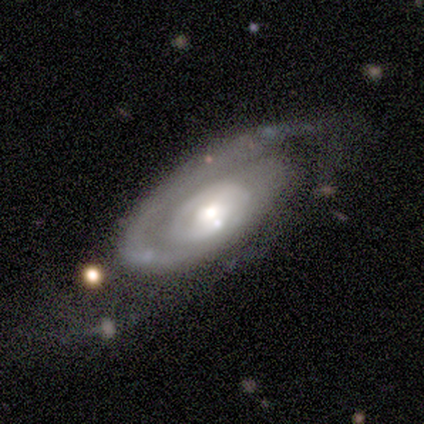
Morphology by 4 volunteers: This is clearly a featured or disk galaxy (100%). It is clearly not viewed edge-on (100%). Bar: clearly no (100%). Spiral arm pattern: clearly yes (100%). Spiral arm count: possibly 1 (50%, tied with 2). Spiral winding: clearly tight (100%). Central bulge: clearly moderate (100%). Merging: likely none (75%).